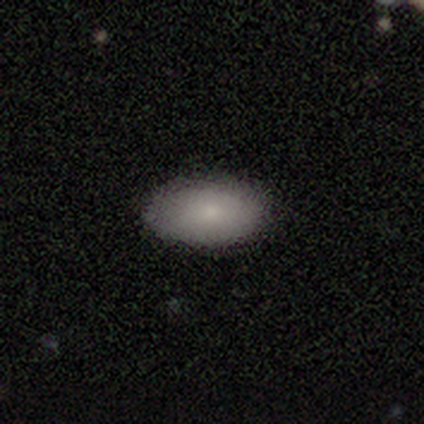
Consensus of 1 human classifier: smooth 100%, featured or disk 0%, star or artifact 0%. Down the decision tree: how rounded — in between (100%); merging — none (100%).